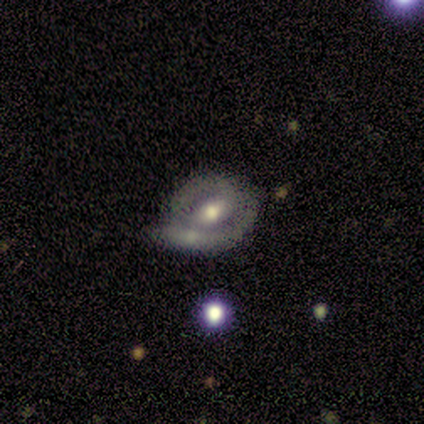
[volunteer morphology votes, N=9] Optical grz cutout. It shows a featured or disk galaxy (78%) with a weak bar (43%, tied with no), 2 (60%) tight (80%) spiral arms (71%) and a moderate central bulge (71%). Merging: minor disturbance (56%).